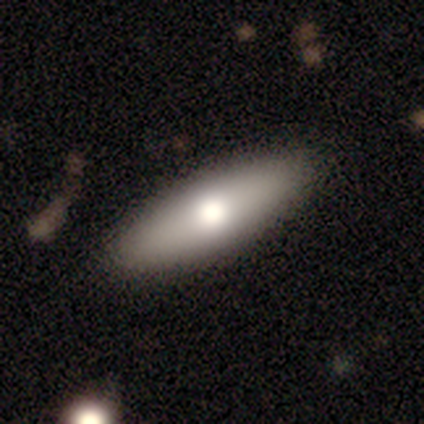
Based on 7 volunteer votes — Smooth or featured? smooth (57%)
How rounded? in between (50%, tied with cigar-shaped)
Merging? none (83%)